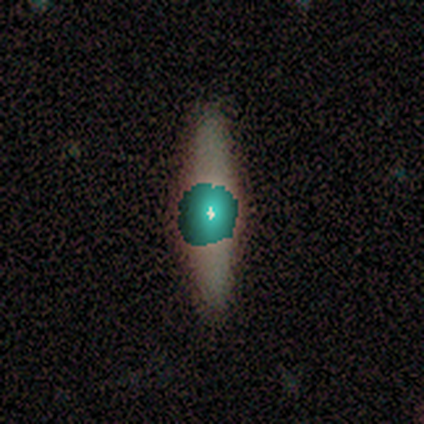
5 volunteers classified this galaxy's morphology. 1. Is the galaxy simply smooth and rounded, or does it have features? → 80% star or artifact, 20% featured or disk, 0% smooth.